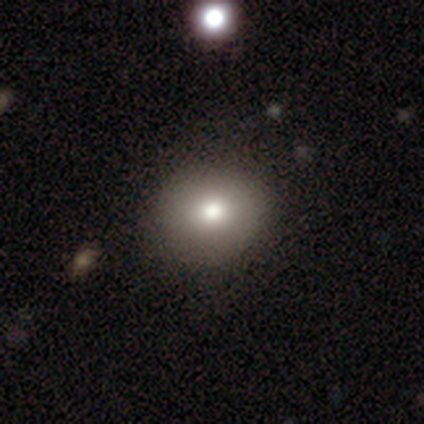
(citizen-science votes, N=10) Q: Smooth or featured?
A: smooth (60%); runner-up: star or artifact (30%)
Q: How rounded?
A: round (100%)
Q: Merging?
A: none (100%)